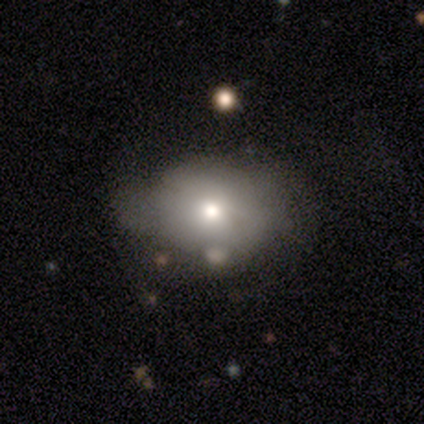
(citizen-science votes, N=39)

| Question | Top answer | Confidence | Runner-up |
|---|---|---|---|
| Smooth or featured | smooth | 69% | featured or disk (18%) |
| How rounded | in between | 59% | round (41%) |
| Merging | minor disturbance | 41% | none (32%) |